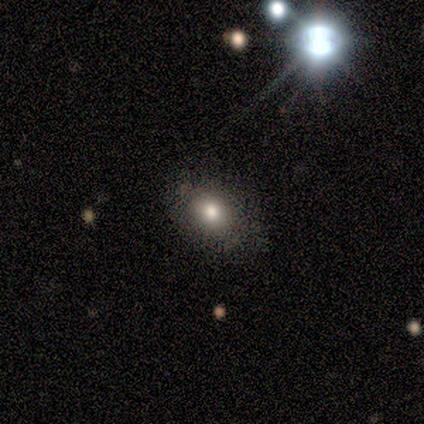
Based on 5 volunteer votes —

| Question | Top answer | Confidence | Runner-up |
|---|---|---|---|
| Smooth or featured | smooth | 60% | star or artifact (40%) |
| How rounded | round | 67% | in between (33%) |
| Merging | none | 67% | minor disturbance (33%) |